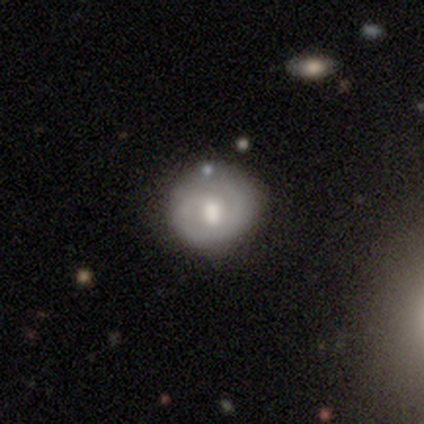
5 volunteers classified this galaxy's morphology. Smooth or featured?
  - featured or disk: 100% *
  - smooth: 0%
  - star or artifact: 0%
Edge-on disk?
  - no: 100% *
  - yes: 0%
Bar?
  - weak: 60% *
  - strong: 20%
  - no: 20%
Spiral arms?
  - yes: 100% *
  - no: 0%
Spiral winding?
  - tight: 80% *
  - medium: 20%
  - loose: 0%
Spiral arm count?
  - 2: 60% *
  - can't tell: 40%
  - 1: 0%
  - 3: 0%
  - 4: 0%
  - more than 4: 0%
Bulge size?
  - moderate: 100% *
  - dominant: 0%
  - large: 0%
  - small: 0%
  - none: 0%
Merging?
  - none: 100% *
  - minor disturbance: 0%
  - major disturbance: 0%
  - merger: 0%